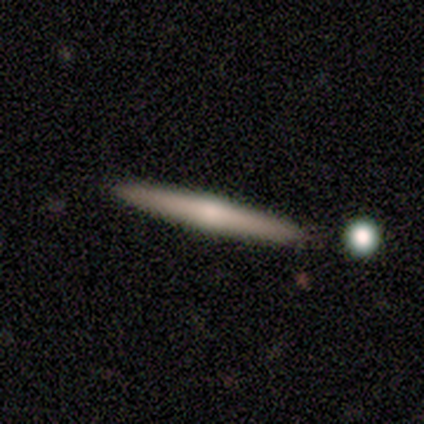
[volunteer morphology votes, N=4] This appears to be a featured or disk galaxy (50%) viewed edge-on (100%) with a rounded central bulge (100%). Merging: none (67%).